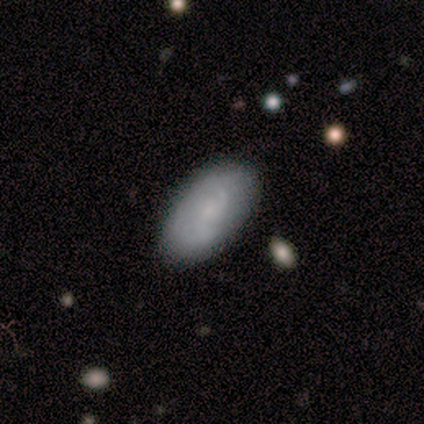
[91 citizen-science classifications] smooth 57%, featured or disk 43%, star or artifact 0%. Down the decision tree: how rounded — in between (92%); merging — none (86%).